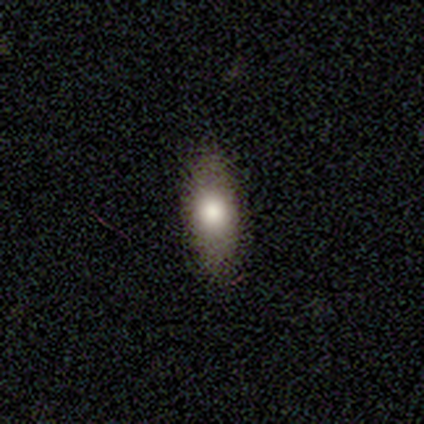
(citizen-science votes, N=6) Volunteers were most divided on "merging": none: 80%, minor disturbance: 20%, major disturbance: 0%, merger: 0%. More confident: how rounded — in between (100%); smooth or featured — smooth (83%).